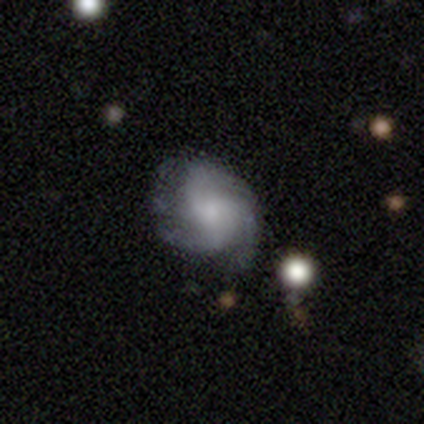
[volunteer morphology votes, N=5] Volunteers were most divided on "spiral arms" (2-way tie): yes: 50%, no: 50%; "spiral arm count" (2-way tie): 2: 50%, can't tell: 50%, 1: 0%, 3: 0%, 4: 0%, more than 4: 0%; "bulge size" (2-way tie): small: 50%, none: 50%, dominant: 0%, large: 0%, moderate: 0%; "merging" (2-way tie): none: 40%, minor disturbance: 40%, major disturbance: 20%, merger: 0%. More confident: edge-on disk — no (100%); bar — no (100%); spiral winding — medium (100%); smooth or featured — featured or disk (80%).